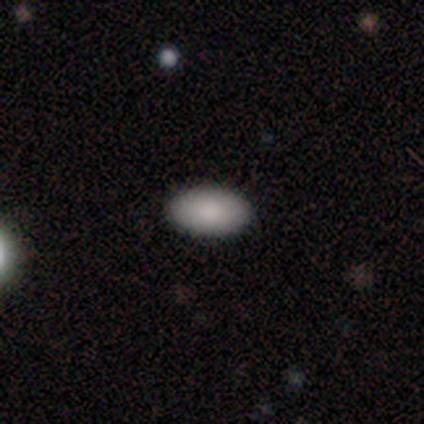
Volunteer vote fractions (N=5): Smooth or featured? smooth (80%)
How rounded? in between (100%)
Merging? none (100%)